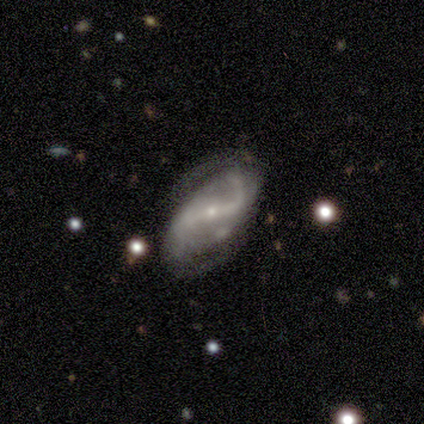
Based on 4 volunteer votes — Morphology: type=featured or disk (100%); edge-on=no (100%); bar=strong (50%, tied with weak); spiral arms=yes (100%); winding=loose (75%); arm count=2 (100%); bulge=small (100%); merging=none (50%).